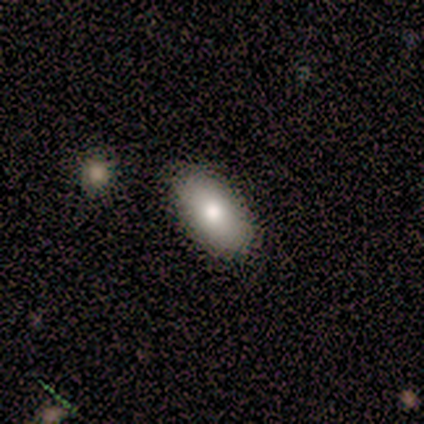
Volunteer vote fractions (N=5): Smooth or featured: smooth — 100%
How rounded: in between — 80% (cigar-shaped — 20%)
Merging: none — 80% (minor disturbance — 20%)